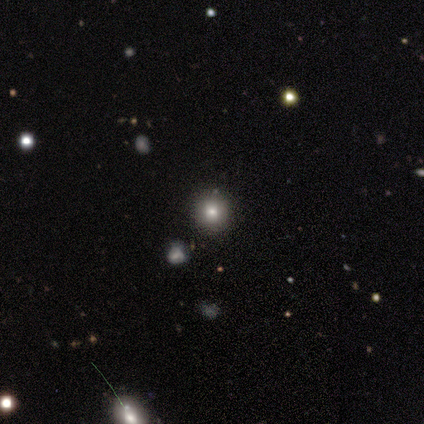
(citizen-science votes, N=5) Volunteers were most divided on "how rounded": round: 75%, in between: 25%, cigar-shaped: 0%. More confident: merging — none (100%); smooth or featured — smooth (80%).